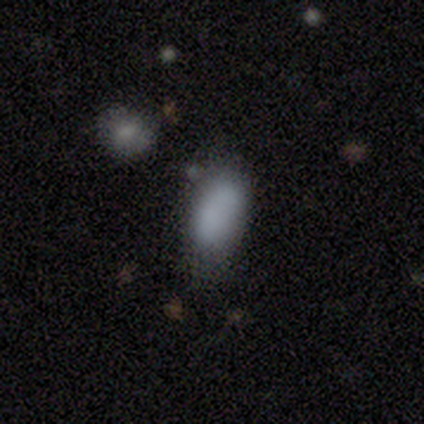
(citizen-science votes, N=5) Overall: smooth (100%). How rounded: in between (80%). Merging: none (100%).